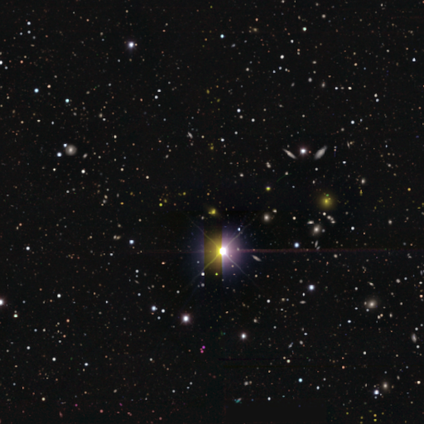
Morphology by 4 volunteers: smooth_or_featured: star or artifact (p=1.00)